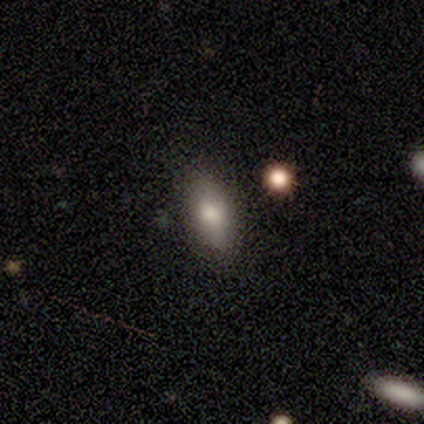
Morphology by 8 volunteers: smooth 88%, featured or disk 12%, star or artifact 0%. Down the decision tree: how rounded — in between (57%); merging — none (88%).